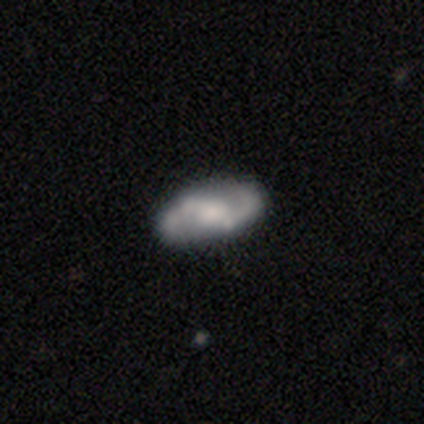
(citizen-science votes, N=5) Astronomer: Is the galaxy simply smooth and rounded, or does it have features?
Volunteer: featured or disk — 100%.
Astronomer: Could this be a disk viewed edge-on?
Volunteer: no — 100%.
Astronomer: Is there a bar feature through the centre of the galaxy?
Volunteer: weak — 60%.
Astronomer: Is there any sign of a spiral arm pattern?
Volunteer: yes — 100%.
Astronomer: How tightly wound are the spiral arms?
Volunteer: medium — 60% (runner-up: loose, 40%).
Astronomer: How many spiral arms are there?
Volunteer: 2 — 100%.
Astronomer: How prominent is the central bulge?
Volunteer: moderate — 40% (runner-up: large, 20%).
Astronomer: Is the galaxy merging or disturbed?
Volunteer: none — 60% (runner-up: minor disturbance, 40%).